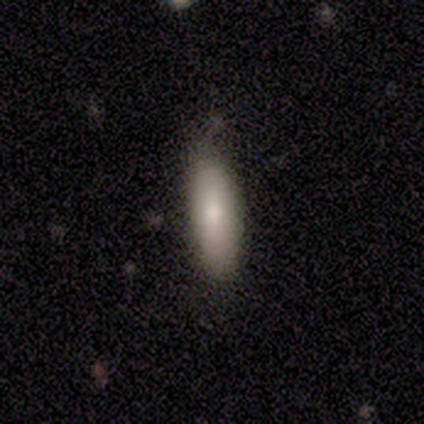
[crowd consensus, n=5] A smooth galaxy with no disk features (100%) that is cigar-shaped (80%). Merging: none (60%).